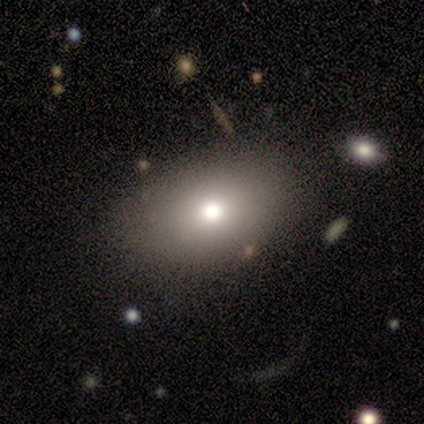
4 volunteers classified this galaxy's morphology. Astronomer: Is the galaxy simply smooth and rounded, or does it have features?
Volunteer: smooth — 75%.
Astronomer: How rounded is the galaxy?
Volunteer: round — 67%.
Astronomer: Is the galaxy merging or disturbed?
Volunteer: none — 100%.